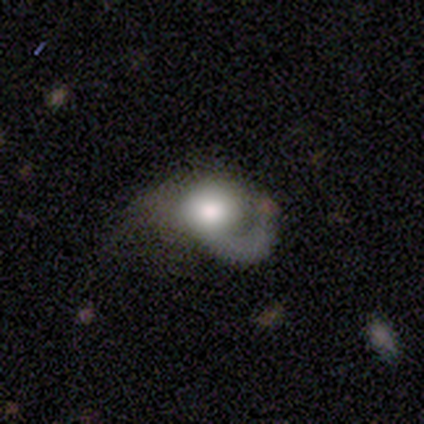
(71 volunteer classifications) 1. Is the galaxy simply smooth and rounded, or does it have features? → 54% featured or disk, 35% smooth, 11% star or artifact.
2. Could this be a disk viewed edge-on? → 97% no, 3% yes.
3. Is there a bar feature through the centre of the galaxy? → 89% no, 11% weak, 0% strong.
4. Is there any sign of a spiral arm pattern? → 73% yes, 27% no.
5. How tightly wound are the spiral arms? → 52% medium, 33% loose, 15% tight.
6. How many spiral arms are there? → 85% 1, 11% can't tell, 4% 2, 0% 3, 0% 4, 0% more than 4.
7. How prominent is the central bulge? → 43% large, 32% moderate, 24% dominant, 0% small, 0% none.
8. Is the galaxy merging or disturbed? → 54% major disturbance, 19% none, 19% minor disturbance, 8% merger.